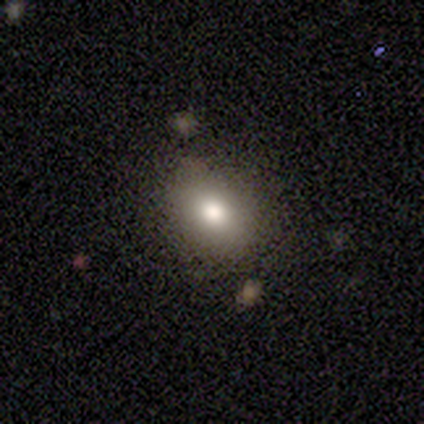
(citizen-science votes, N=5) Smooth or featured: smooth — 60% (featured or disk — 20%)
How rounded: in between — 100%
Merging: none — 100%